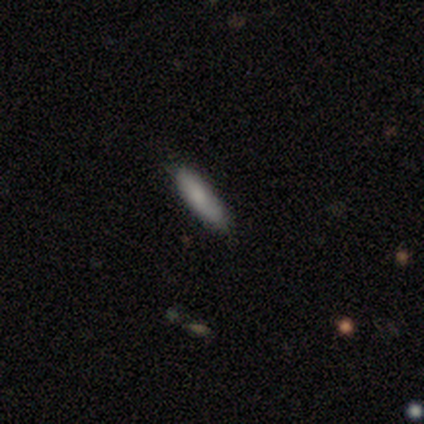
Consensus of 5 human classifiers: Smooth or featured: smooth — 100%
How rounded: in between — 60% (cigar-shaped — 40%)
Merging: none — 80% (minor disturbance — 20%)